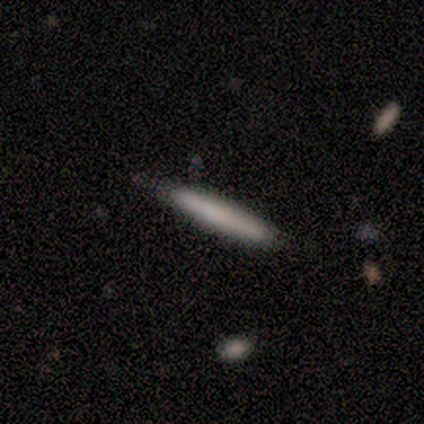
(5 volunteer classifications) Q: Smooth or featured?
A: smooth (80%); runner-up: featured or disk (20%)
Q: How rounded?
A: cigar-shaped (100%)
Q: Merging?
A: none (80%); runner-up: minor disturbance (20%)